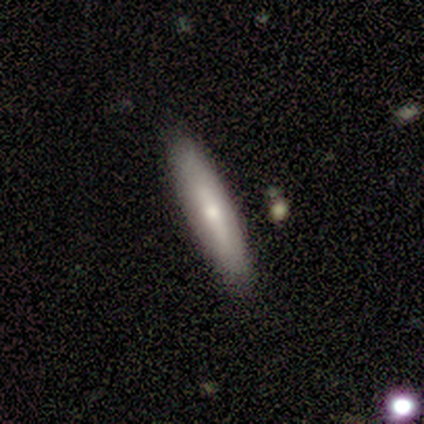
A smooth galaxy with no disk features (80%) that is in between round and cigar-shaped (50%, tied with cigar-shaped).

Vote fractions:
- Smooth or featured? smooth: 80% / featured or disk: 20% / star or artifact: 0%
- How rounded? in between: 50% (tied) / cigar-shaped: 50% (tied) / round: 0%
- Merging? none: 100% / minor disturbance: 0% / major disturbance: 0% / merger: 0%